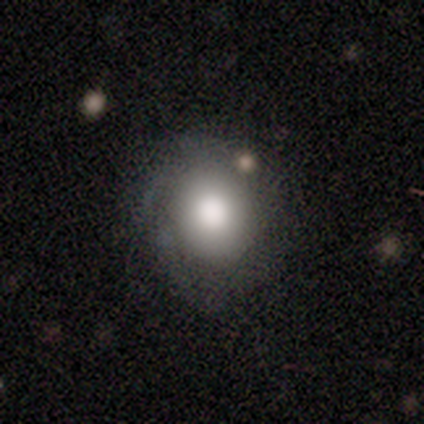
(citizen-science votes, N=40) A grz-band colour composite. It shows a smooth galaxy with no disk features (82%) that is round (82%). Merging: none (57%).